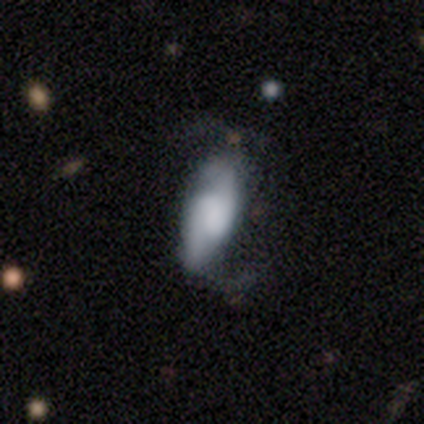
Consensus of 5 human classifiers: A featured or disk galaxy (80%) with a strong bar (50%, tied with weak), 2 (100%) loose (75%) spiral arms (100%) and a moderate central bulge (50%, tied with none).

Vote fractions:
- Smooth or featured? featured or disk: 80% / star or artifact: 20% / smooth: 0%
- Edge-on disk? no: 100% / yes: 0%
- Bar? strong: 50% (tied) / weak: 50% (tied) / no: 0%
- Spiral arms? yes: 100% / no: 0%
- Spiral winding? loose: 75% / medium: 25% / tight: 0%
- Spiral arm count? 2: 100% / 1: 0% / 3: 0% / 4: 0% / more than 4: 0% / can't tell: 0%
- Bulge size? moderate: 50% (tied) / none: 50% (tied) / dominant: 0% / large: 0% / small: 0%
- Merging? none: 75% / minor disturbance: 25% / major disturbance: 0% / merger: 0%